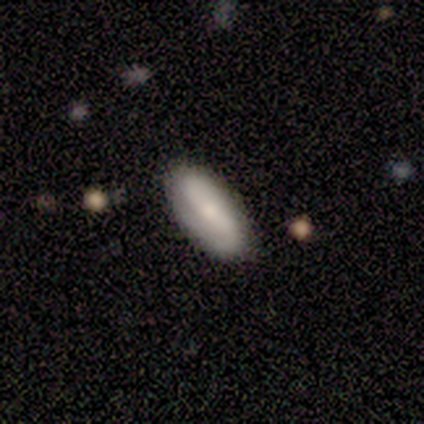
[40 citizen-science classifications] Smooth or featured: smooth — 50% (featured or disk — 45%)
How rounded: in between — 70% (cigar-shaped — 30%)
Merging: none — 89% (minor disturbance — 5%)